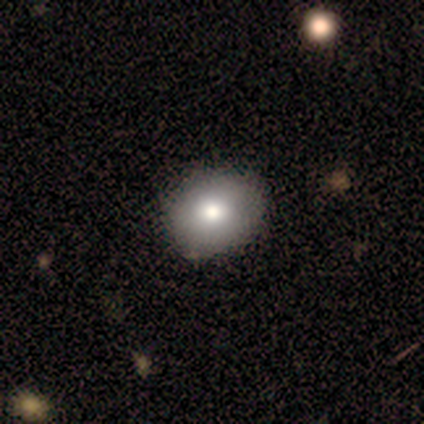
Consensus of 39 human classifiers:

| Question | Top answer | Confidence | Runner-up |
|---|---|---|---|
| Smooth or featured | smooth | 72% | star or artifact (15%) |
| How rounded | round | 61% | in between (39%) |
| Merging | none | 67% | minor disturbance (6%) |